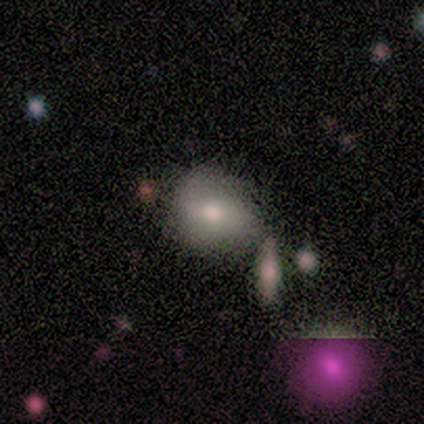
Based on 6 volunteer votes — This appears to be a featured or disk galaxy (50%) with a weak bar (67%), 2 (100%) medium (50%, tied with loose) spiral arms (67%) and a moderate central bulge (67%). Merging: none (60%).